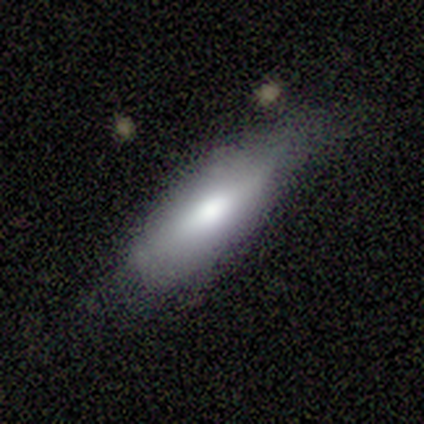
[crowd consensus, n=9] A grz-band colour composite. It shows a smooth galaxy with no disk features (67%) that is in between round and cigar-shaped (100%). Merging: none (50%).